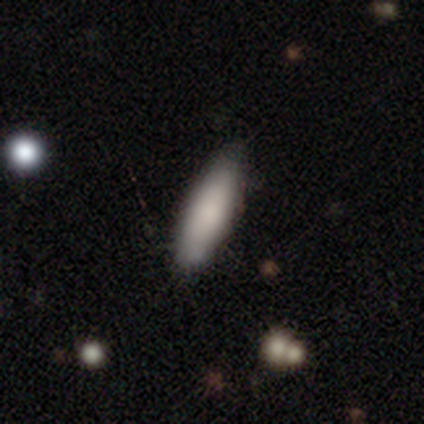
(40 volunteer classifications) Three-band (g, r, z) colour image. It shows a smooth galaxy with no disk features (78%) that is cigar-shaped (52%). Merging: none (59%).